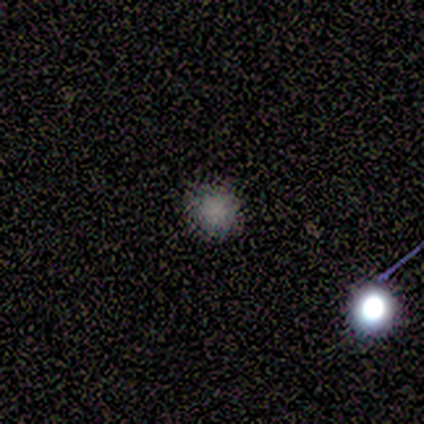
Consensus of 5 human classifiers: A smooth galaxy with no disk features (80%) that is round (100%).

Vote fractions:
- Smooth or featured? smooth: 80% / star or artifact: 20% / featured or disk: 0%
- How rounded? round: 100% / in between: 0% / cigar-shaped: 0%
- Merging? none: 100% / minor disturbance: 0% / major disturbance: 0% / merger: 0%